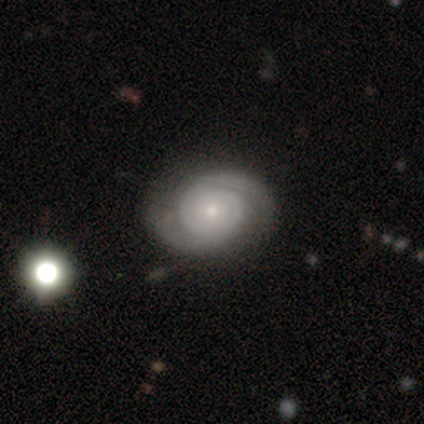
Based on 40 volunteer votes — A featured or disk galaxy (75%) with no bar (79%), 2 (90%) tight (52%) spiral arms (100%) and a small central bulge (66%). Merging: none (86%).